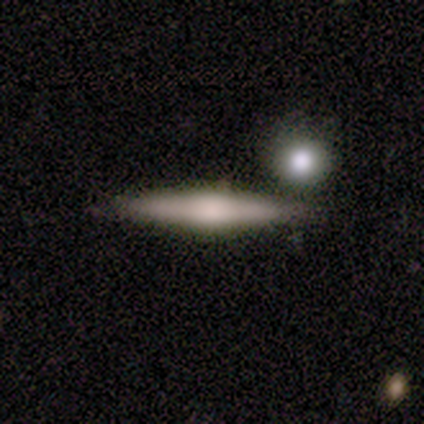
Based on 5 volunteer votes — smooth-or-featured: smooth: 60% | featured or disk: 40% | star or artifact: 0%
  how-rounded: cigar-shaped: 100% | round: 0% | in between: 0%
  merging: none: 100% | minor disturbance: 0% | major disturbance: 0% | merger: 0%